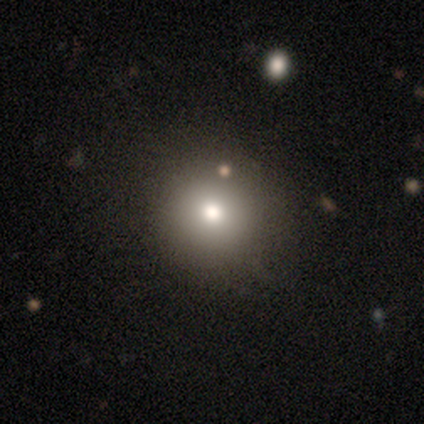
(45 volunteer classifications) smooth_or_featured: smooth (p=0.73) [alt: featured or disk p=0.13]
how_rounded: round (p=0.91) [alt: in between p=0.09]
merging: none (p=0.85) [alt: minor disturbance p=0.08]